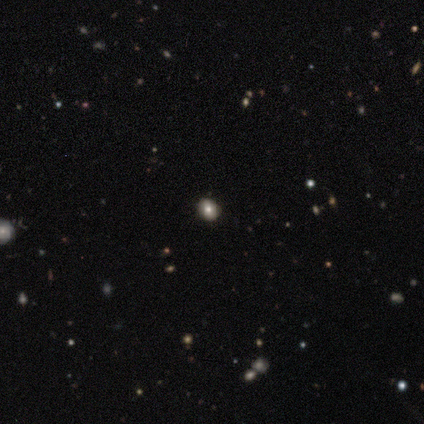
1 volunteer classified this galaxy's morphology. Overall: smooth (100%). How rounded: in between (100%). Merging: none (100%).